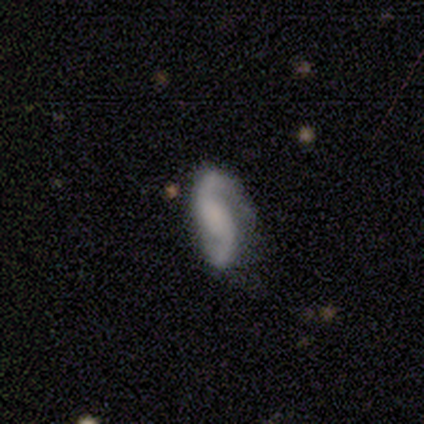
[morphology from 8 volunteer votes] A featured or disk galaxy (100%) with no bar (50%), 2 (100%) loose (50%) spiral arms (100%) and no central bulge (75%).

Vote fractions:
- Smooth or featured? featured or disk: 100% / smooth: 0% / star or artifact: 0%
- Edge-on disk? no: 100% / yes: 0%
- Bar? no: 50% / strong: 25% / weak: 25%
- Spiral arms? yes: 100% / no: 0%
- Spiral winding? loose: 50% / medium: 38% / tight: 12%
- Spiral arm count? 2: 100% / 1: 0% / 3: 0% / 4: 0% / more than 4: 0% / can't tell: 0%
- Bulge size? none: 75% / large: 12% / small: 12% / dominant: 0% / moderate: 0%
- Merging? none: 50% / minor disturbance: 38% / major disturbance: 12% / merger: 0%